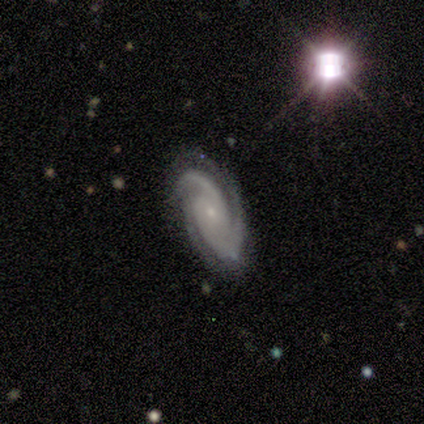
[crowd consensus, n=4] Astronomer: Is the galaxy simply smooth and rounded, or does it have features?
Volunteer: featured or disk — 100%.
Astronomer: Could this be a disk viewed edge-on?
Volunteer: no — 100%.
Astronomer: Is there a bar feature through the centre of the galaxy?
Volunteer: weak — 50%, tied with no at 50%.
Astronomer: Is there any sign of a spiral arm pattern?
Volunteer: yes — 100%.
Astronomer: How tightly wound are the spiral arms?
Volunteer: tight — 75%.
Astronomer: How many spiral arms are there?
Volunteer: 3 — 75%.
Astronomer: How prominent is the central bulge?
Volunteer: small — 75%.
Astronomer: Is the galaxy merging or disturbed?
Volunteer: minor disturbance — 75%.